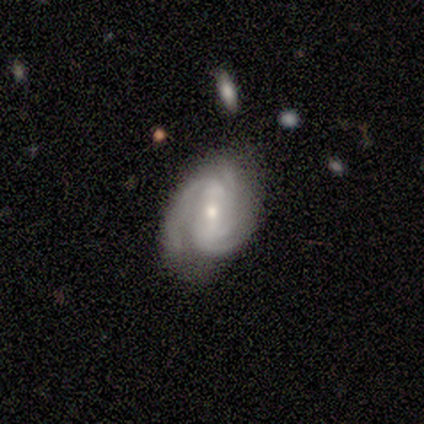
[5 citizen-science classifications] Smooth or featured? 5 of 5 (100%) said featured or disk. Edge-on disk? 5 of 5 (100%) said no. Bar? 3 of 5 (60%) said weak. Spiral arms? 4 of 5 (80%) said yes. Spiral winding? 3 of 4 (75%) said tight. Spiral arm count? 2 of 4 (50%, tied with 3) said 2. Bulge size? 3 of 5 (60%) said moderate. Merging? 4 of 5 (80%) said none.